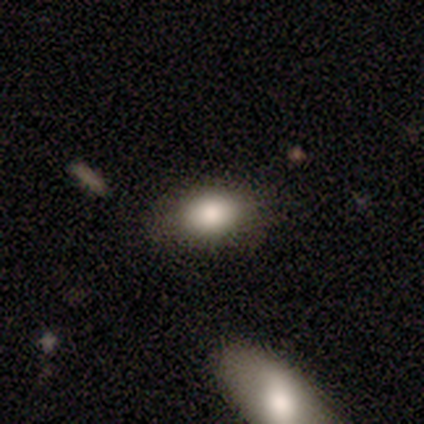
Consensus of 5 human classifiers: smooth 80%, featured or disk 20%, star or artifact 0%. Down the decision tree: how rounded — in between (100%); merging — none (80%).